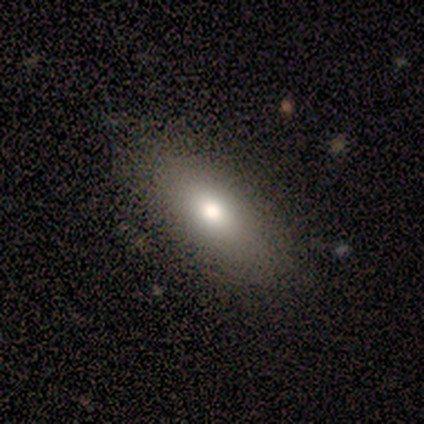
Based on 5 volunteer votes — smooth 100%, featured or disk 0%, star or artifact 0%. Down the decision tree: how rounded — in between (80%); merging — none (60%).